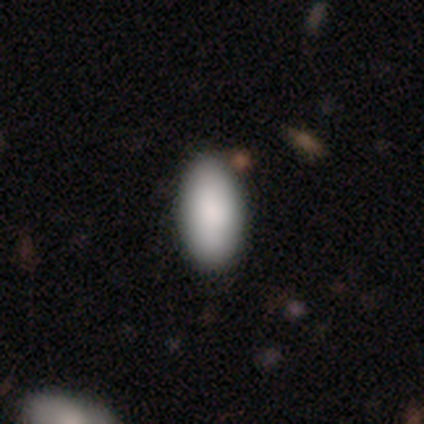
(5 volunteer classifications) This is clearly a smooth galaxy (100%). How rounded: clearly in between (80%). Merging: likely none (60%).